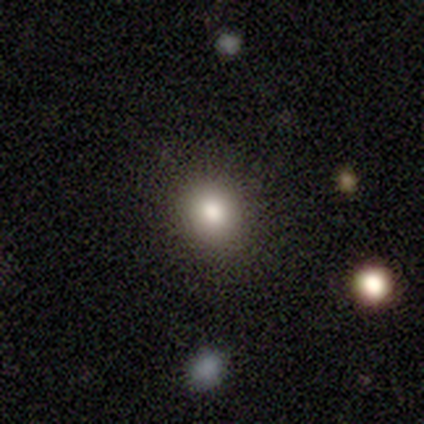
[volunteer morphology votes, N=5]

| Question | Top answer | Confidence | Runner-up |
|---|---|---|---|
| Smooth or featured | smooth | 60% | featured or disk (20%) |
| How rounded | round | 100% | — |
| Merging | none | 100% | — |